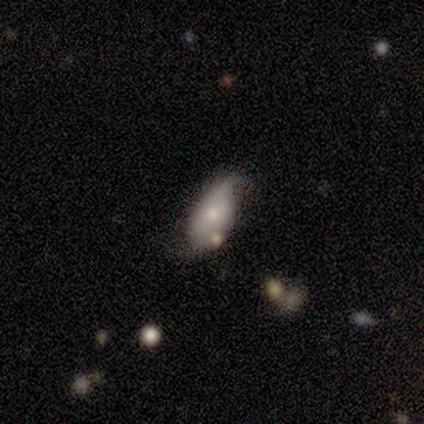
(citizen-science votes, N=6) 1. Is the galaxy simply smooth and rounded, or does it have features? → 50% smooth (tied), 50% featured or disk (tied), 0% star or artifact.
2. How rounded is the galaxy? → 100% in between, 0% round, 0% cigar-shaped.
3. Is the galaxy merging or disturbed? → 67% minor disturbance, 17% none, 17% merger, 0% major disturbance.